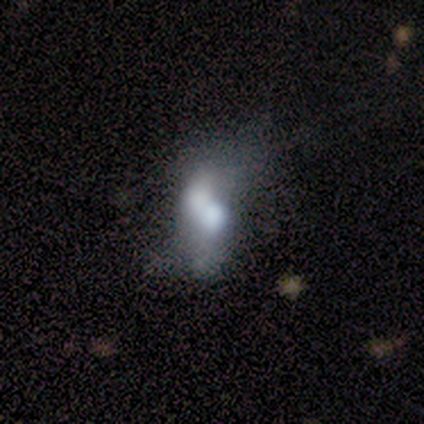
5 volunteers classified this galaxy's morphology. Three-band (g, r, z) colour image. It shows a featured or disk galaxy (60%) with no bar (100%), no spiral arms (67%) and a moderate central bulge (67%). Merging: merger (75%).